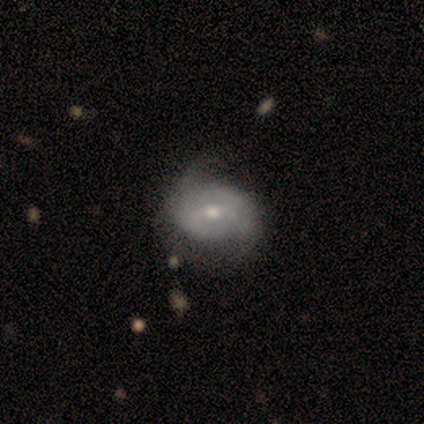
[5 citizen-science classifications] A featured or disk galaxy (80%) with a weak bar (75%), 2 (100%) tight (33%, tied with medium and loose) spiral arms (75%) and a moderate central bulge (50%, tied with small).

Vote fractions:
- Smooth or featured? featured or disk: 80% / smooth: 20% / star or artifact: 0%
- Edge-on disk? no: 100% / yes: 0%
- Bar? weak: 75% / no: 25% / strong: 0%
- Spiral arms? yes: 75% / no: 25%
- Spiral winding? tight: 33% (tied) / medium: 33% (tied) / loose: 33% (tied)
- Spiral arm count? 2: 100% / 1: 0% / 3: 0% / 4: 0% / more than 4: 0% / can't tell: 0%
- Bulge size? moderate: 50% (tied) / small: 50% (tied) / dominant: 0% / large: 0% / none: 0%
- Merging? none: 60% / minor disturbance: 40% / major disturbance: 0% / merger: 0%